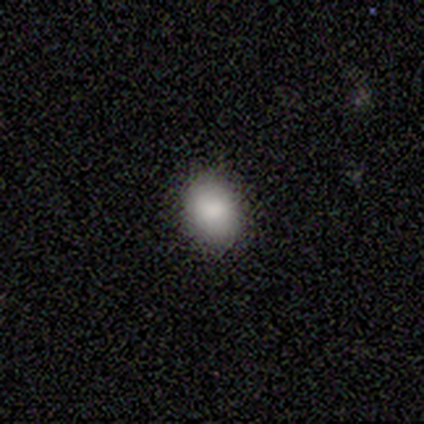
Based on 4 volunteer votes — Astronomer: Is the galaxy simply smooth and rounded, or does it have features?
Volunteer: smooth — 100%.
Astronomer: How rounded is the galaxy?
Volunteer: round — 50%, tied with in between at 50%.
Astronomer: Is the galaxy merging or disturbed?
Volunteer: none — 100%.